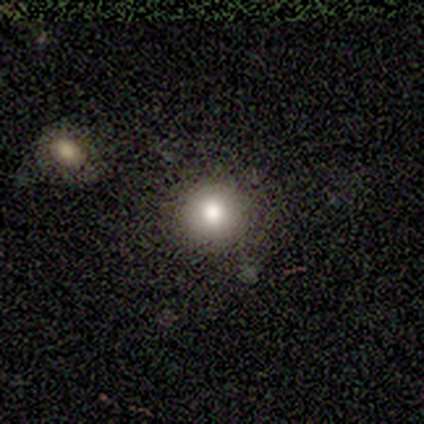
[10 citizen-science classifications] Morphology: type=smooth (90%); roundness=round (89%); merging=none (90%).